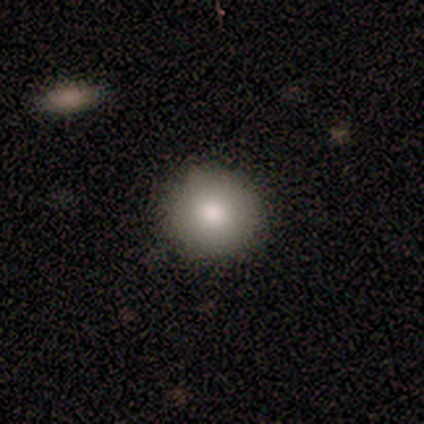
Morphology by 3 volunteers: Smooth or featured? smooth (100%)
How rounded? round (67%)
Merging? none (33%, tied with minor disturbance and major disturbance)